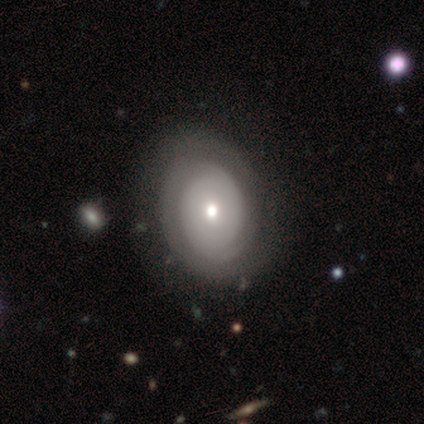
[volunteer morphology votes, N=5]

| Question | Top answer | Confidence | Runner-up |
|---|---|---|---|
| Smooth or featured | smooth | 40% | tied: featured or disk (40%) |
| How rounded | in between | 100% | — |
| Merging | minor disturbance | 75% | none (25%) |